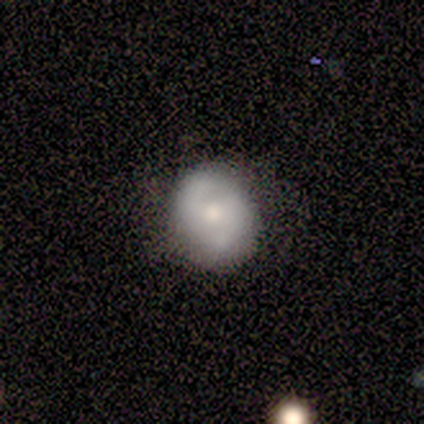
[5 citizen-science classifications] featured or disk 60%, smooth 40%, star or artifact 0%. Down the decision tree: edge-on disk — no (100%); bar — strong (33%, tied with weak and no); spiral arms — yes (100%); spiral arm count — 2 (100%); spiral winding — tight (33%, tied with medium and loose); bulge size — moderate (100%); merging — none (100%).